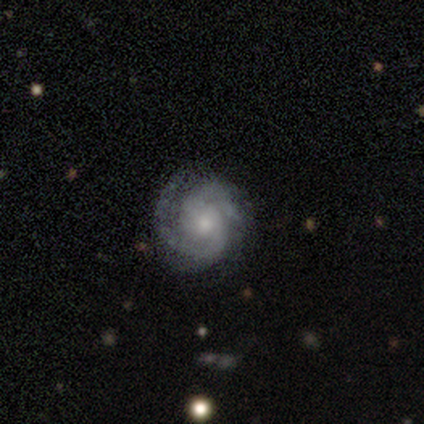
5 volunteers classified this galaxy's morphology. Q: Smooth or featured?
A: featured or disk (80%); runner-up: star or artifact (20%)
Q: Edge-on disk?
A: no (100%)
Q: Bar?
A: no (75%); runner-up: weak (25%)
Q: Spiral arms?
A: yes (100%)
Q: Spiral winding?
A: medium (75%); runner-up: loose (25%)
Q: Spiral arm count?
A: 2 (75%); runner-up: can't tell (25%)
Q: Bulge size?
A: moderate (50%); tied with: small (50%)
Q: Merging?
A: none (100%)